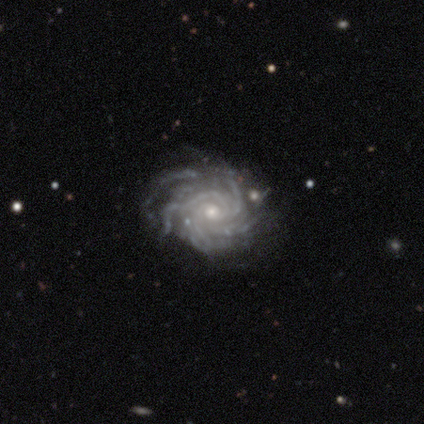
This is clearly a featured or disk galaxy (80%). It is clearly not viewed edge-on (100%). Bar: clearly no (100%). Spiral arm pattern: clearly yes (100%). Spiral arm count: possibly more than 4 (50%, tied with can't tell). Spiral winding: likely tight (75%). Central bulge: possibly moderate (50%, tied with small). Merging: likely none (75%).